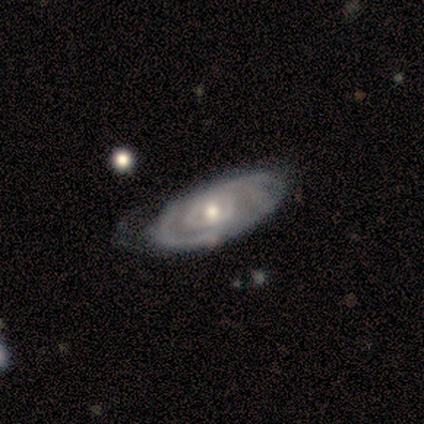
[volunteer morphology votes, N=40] featured or disk 80%, smooth 20%, star or artifact 0%. Down the decision tree: edge-on disk — no (78%); bar — no (84%); spiral arms — yes (68%); spiral arm count — can't tell (65%); spiral winding — tight (82%); bulge size — moderate (60%); merging — none (55%).